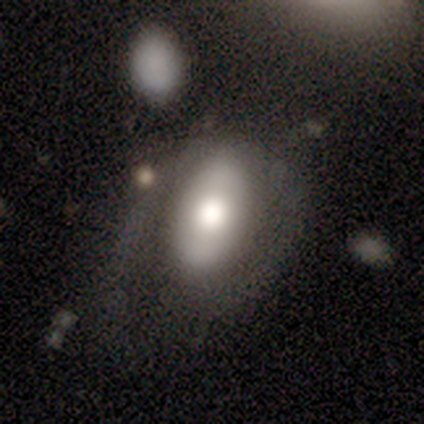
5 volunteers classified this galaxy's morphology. Smooth or featured: featured or disk — 80% (smooth — 20%)
Edge-on disk: no — 100%
Bar: no — 100%
Spiral arms: no — 75% (yes — 25%)
Bulge size: moderate — 50% (dominant — 25%)
Merging: none — 60% (major disturbance — 40%)